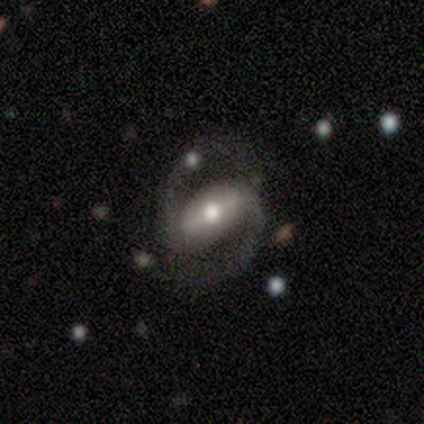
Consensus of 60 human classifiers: Overall: featured or disk (93%). Edge-on disk: no (96%). Bar: strong (80%). Spiral arms: yes (100%). Spiral arm count: 2 (100%). Spiral winding: medium (76%). Bulge size: moderate (65%). Merging: none (82%).